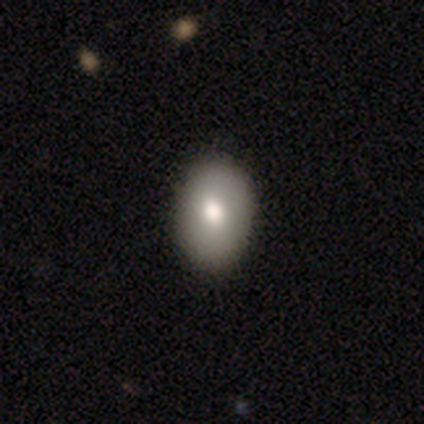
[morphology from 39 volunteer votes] A smooth galaxy with no disk features (77%) that is in between round and cigar-shaped (77%).

Vote fractions:
- Smooth or featured? smooth: 77% / featured or disk: 15% / star or artifact: 8%
- How rounded? in between: 77% / round: 23% / cigar-shaped: 0%
- Merging? none: 92% / minor disturbance: 6% / major disturbance: 3% / merger: 0%